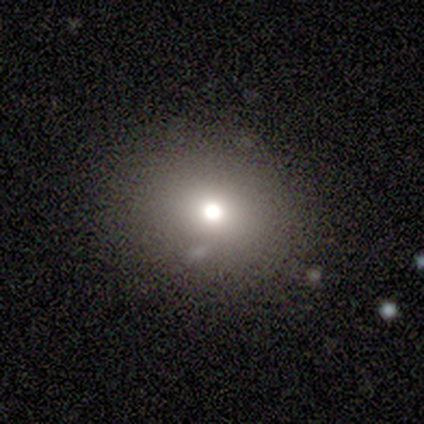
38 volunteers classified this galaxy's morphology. smooth_or_featured: smooth (p=0.61) [alt: star or artifact p=0.21]
how_rounded: round (p=0.70) [alt: in between p=0.30]
merging: none (p=0.93) [alt: major disturbance p=0.03]